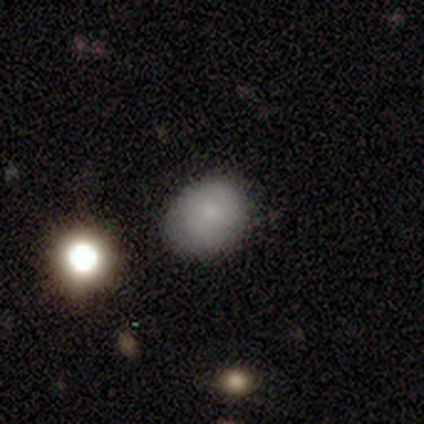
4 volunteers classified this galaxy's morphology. Smooth or featured: smooth — 75% (star or artifact — 25%)
How rounded: round — 67% (in between — 33%)
Merging: none — 100%